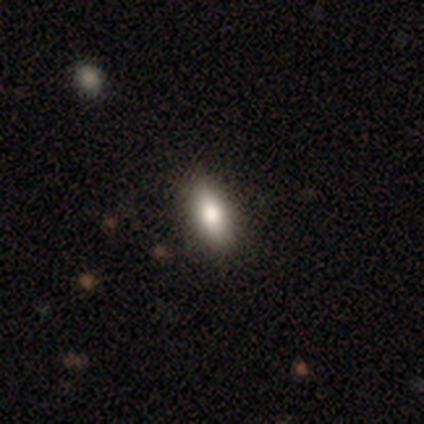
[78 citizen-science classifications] Smooth or featured? smooth (81%)
How rounded? in between (89%)
Merging? none (43%)